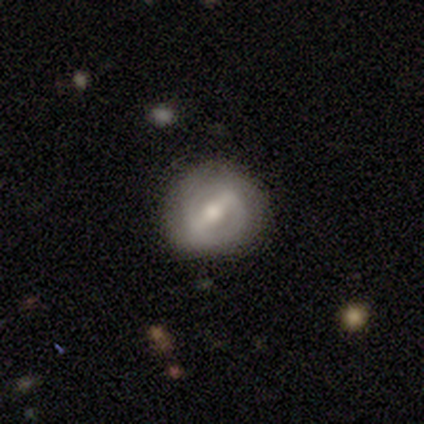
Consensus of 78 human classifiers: Q: Smooth or featured?
A: featured or disk (74%); runner-up: smooth (22%)
Q: Edge-on disk?
A: no (100%)
Q: Bar?
A: strong (72%); runner-up: weak (26%)
Q: Spiral arms?
A: no (57%); runner-up: yes (43%)
Q: Bulge size?
A: moderate (69%); runner-up: large (19%)
Q: Merging?
A: none (47%); runner-up: minor disturbance (4%)